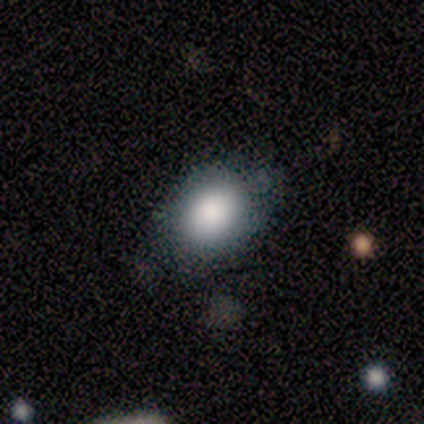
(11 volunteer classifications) Smooth or featured? smooth (91%)
How rounded? round (50%, tied with in between)
Merging? none (45%, tied with minor disturbance)